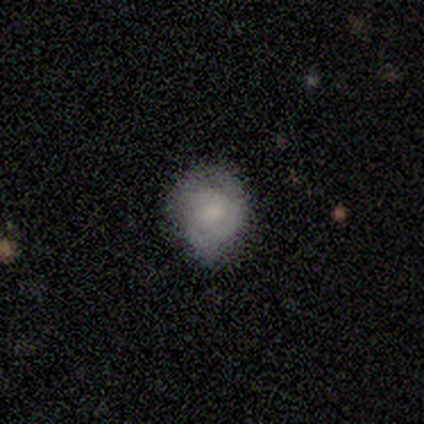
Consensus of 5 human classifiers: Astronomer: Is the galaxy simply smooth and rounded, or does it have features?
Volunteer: smooth — 60% (runner-up: featured or disk, 40%).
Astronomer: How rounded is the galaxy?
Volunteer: round — 67%.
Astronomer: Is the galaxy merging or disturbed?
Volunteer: none — 100%.